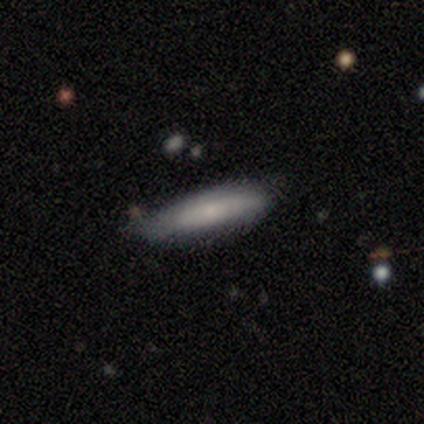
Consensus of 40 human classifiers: Q: Smooth or featured?
A: smooth (68%); runner-up: featured or disk (20%)
Q: How rounded?
A: cigar-shaped (74%); runner-up: in between (26%)
Q: Merging?
A: none (66%); runner-up: minor disturbance (29%)